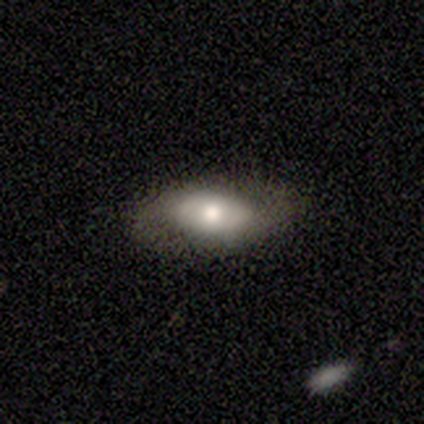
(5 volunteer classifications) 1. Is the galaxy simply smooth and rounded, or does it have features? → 60% featured or disk, 40% smooth, 0% star or artifact.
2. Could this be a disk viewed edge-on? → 100% no, 0% yes.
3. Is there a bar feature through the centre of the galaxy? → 100% no, 0% strong, 0% weak.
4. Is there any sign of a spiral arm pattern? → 67% yes, 33% no.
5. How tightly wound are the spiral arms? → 50% tight (tied), 50% medium (tied), 0% loose.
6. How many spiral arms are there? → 50% 2 (tied), 50% can't tell (tied), 0% 1, 0% 3, 0% 4, 0% more than 4.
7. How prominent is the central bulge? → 67% moderate, 33% large, 0% dominant, 0% small, 0% none.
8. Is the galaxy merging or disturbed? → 100% none, 0% minor disturbance, 0% major disturbance, 0% merger.